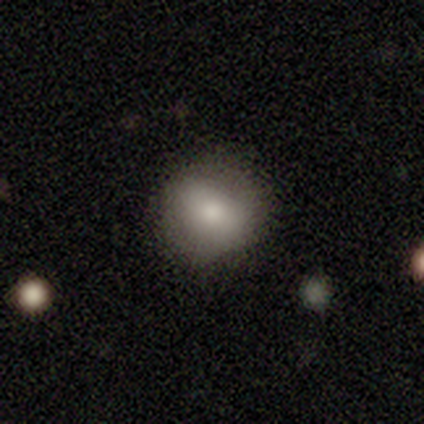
Smooth or featured? 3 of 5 (60%) said smooth. How rounded? 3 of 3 (100%) said round. Merging? 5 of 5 (100%) said none.